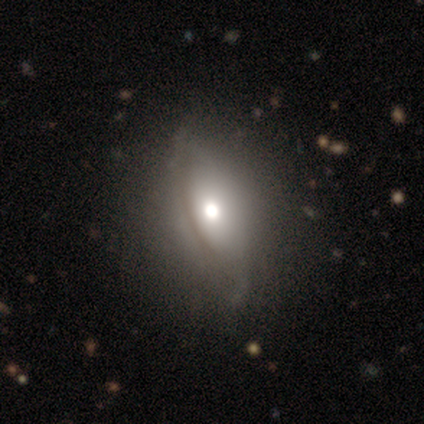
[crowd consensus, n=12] Q: Smooth or featured?
A: featured or disk (67%); runner-up: smooth (33%)
Q: Edge-on disk?
A: no (75%); runner-up: yes (25%)
Q: Bar?
A: no (100%)
Q: Spiral arms?
A: no (100%)
Q: Bulge size?
A: moderate (50%); runner-up: large (33%)
Q: Merging?
A: none (75%); runner-up: minor disturbance (25%)